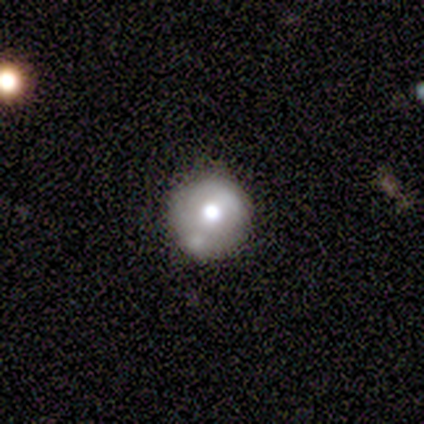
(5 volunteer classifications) Morphology: type=smooth (40%, tied with featured or disk); roundness=round (100%); merging=none (75%).